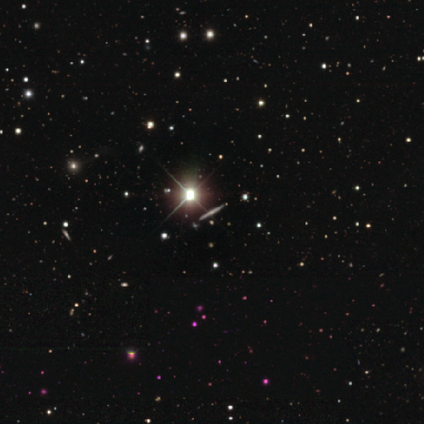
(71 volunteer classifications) smooth_or_featured: featured or disk (p=0.51) [alt: star or artifact p=0.35]
disk_edge_on: yes (p=1.00)
edge_on_bulge: none (p=0.58) [alt: rounded p=0.33]
merging: none (p=0.91) [alt: minor disturbance p=0.07]